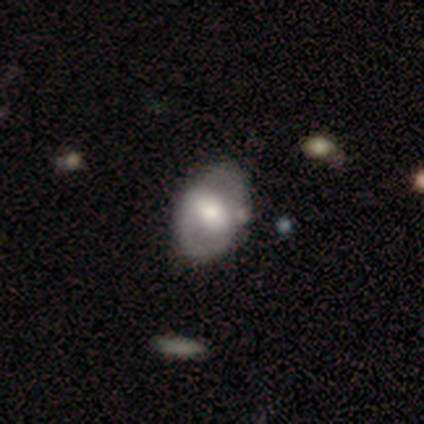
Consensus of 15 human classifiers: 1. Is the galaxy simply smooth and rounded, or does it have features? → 40% smooth (tied), 40% featured or disk (tied), 20% star or artifact.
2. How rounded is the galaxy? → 100% in between, 0% round, 0% cigar-shaped.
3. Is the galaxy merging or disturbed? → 75% none, 17% minor disturbance, 8% merger, 0% major disturbance.